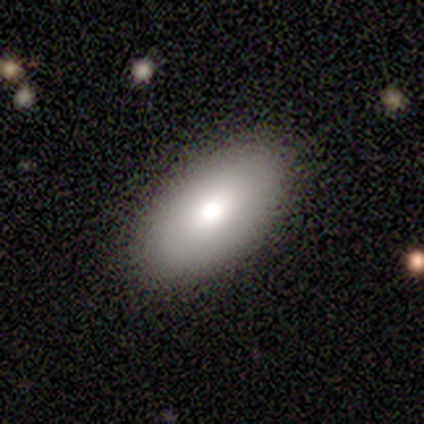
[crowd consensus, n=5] Consensus on every question: smooth or featured — smooth (100%); how rounded — in between (100%); merging — none (100%).